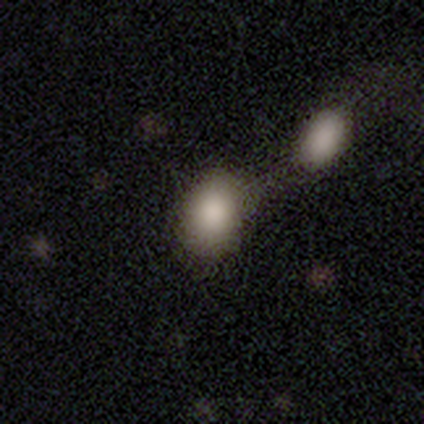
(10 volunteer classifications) Volunteers were most divided on "merging": merger: 50%, none: 20%, minor disturbance: 20%, major disturbance: 10%. More confident: smooth or featured — smooth (100%); how rounded — in between (90%).